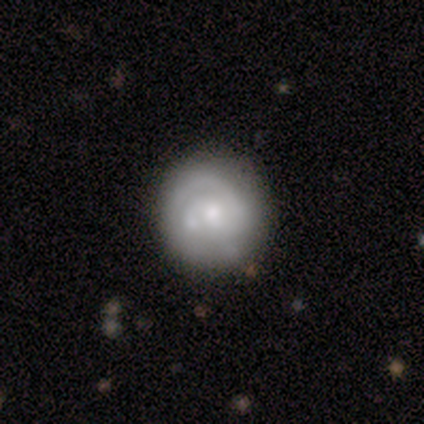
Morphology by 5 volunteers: Overall: featured or disk (60%; smooth 40%). Edge-on disk: no (100%). Bar: no (67%; strong 33%). Spiral arms: yes (100%). Spiral arm count: can't tell (67%; 3 33%). Spiral winding: tight (100%). Bulge size: small (67%; moderate 33%). Merging: none (80%).